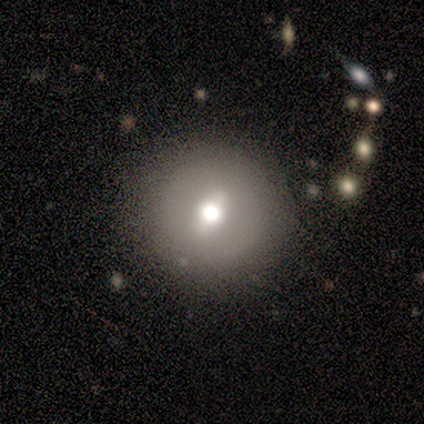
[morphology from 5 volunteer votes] Q: Smooth or featured?
A: featured or disk (60%); runner-up: star or artifact (40%)
Q: Edge-on disk?
A: no (100%)
Q: Bar?
A: weak (67%); runner-up: no (33%)
Q: Spiral arms?
A: no (100%)
Q: Bulge size?
A: large (33%); tied with: moderate (33%); small (33%)
Q: Merging?
A: none (100%)